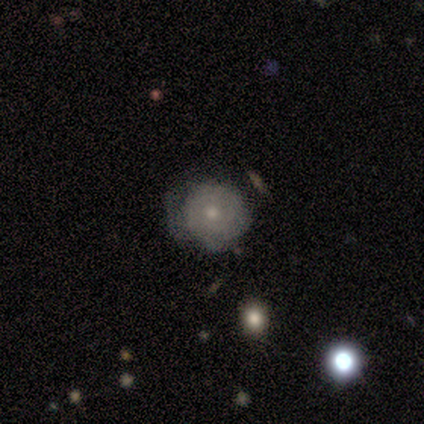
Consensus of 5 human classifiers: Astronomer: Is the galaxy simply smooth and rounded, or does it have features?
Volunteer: smooth — 80%.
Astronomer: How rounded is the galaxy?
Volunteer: round — 100%.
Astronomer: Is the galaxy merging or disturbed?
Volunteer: none — 100%.